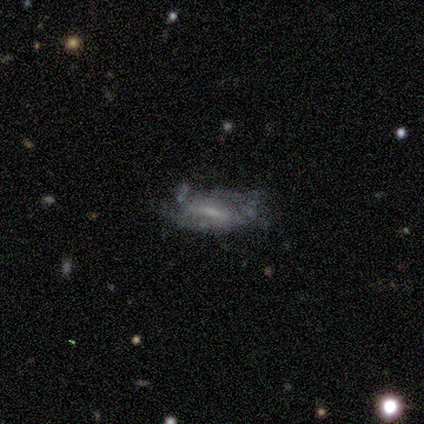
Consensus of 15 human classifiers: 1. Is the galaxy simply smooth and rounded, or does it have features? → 47% smooth (tied), 47% featured or disk (tied), 7% star or artifact.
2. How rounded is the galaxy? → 71% in between, 29% cigar-shaped, 0% round.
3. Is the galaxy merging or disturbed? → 36% none (tied), 36% minor disturbance (tied), 14% major disturbance, 14% merger.